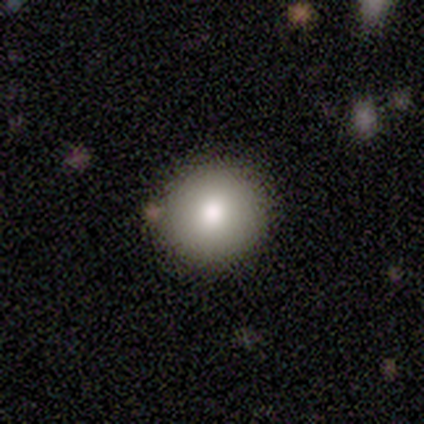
Volunteers were most divided on "smooth or featured": smooth: 80%, featured or disk: 20%, star or artifact: 0%. More confident: how rounded — round (100%); merging — none (80%).